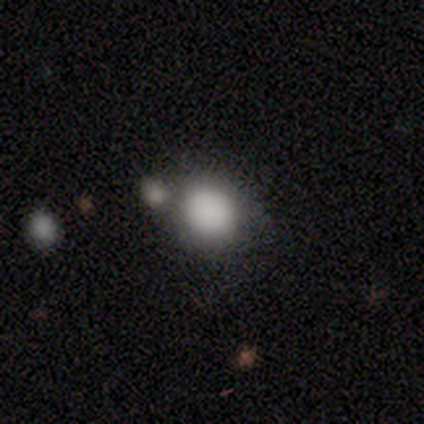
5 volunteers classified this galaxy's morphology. smooth 60%, featured or disk 40%, star or artifact 0%. Down the decision tree: how rounded — round (67%); merging — none (60%).